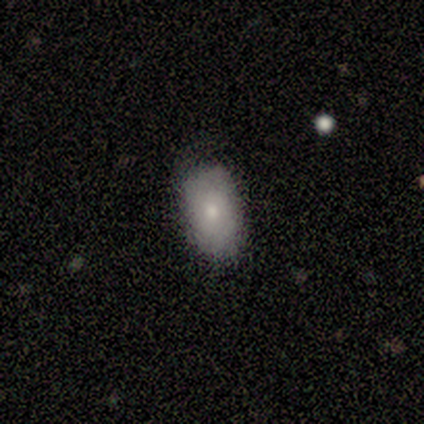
This is clearly a smooth galaxy (80%). How rounded: likely in between (75%). Merging: clearly none (100%).